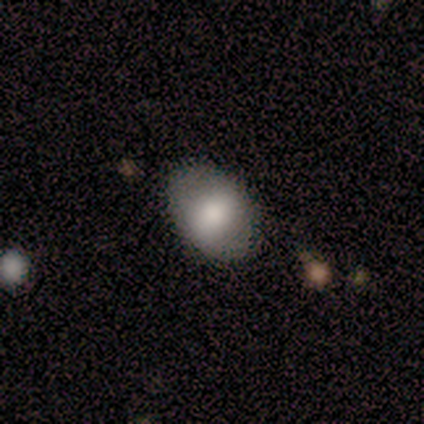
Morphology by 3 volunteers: Q: Smooth or featured?
A: featured or disk (67%); runner-up: smooth (33%)
Q: Edge-on disk?
A: yes (50%); tied with: no (50%)
Q: Edge-on bulge?
A: rounded (100%)
Q: Merging?
A: none (100%)